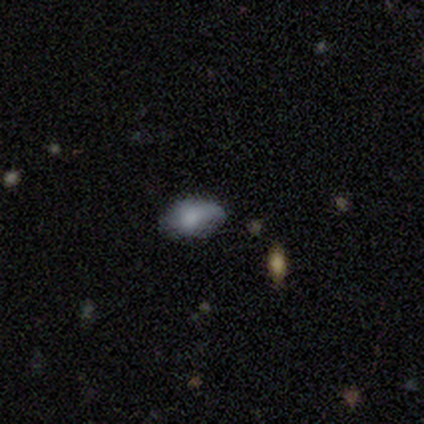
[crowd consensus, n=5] Smooth or featured?
  - smooth: 80% *
  - star or artifact: 20%
  - featured or disk: 0%
How rounded?
  - in between: 100% *
  - round: 0%
  - cigar-shaped: 0%
Merging?
  - none: 75% *
  - minor disturbance: 25%
  - major disturbance: 0%
  - merger: 0%